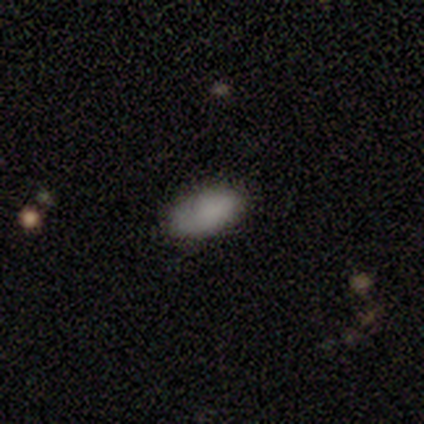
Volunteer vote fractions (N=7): Morphology: type=smooth (86%); roundness=in between (83%); merging=none (83%).